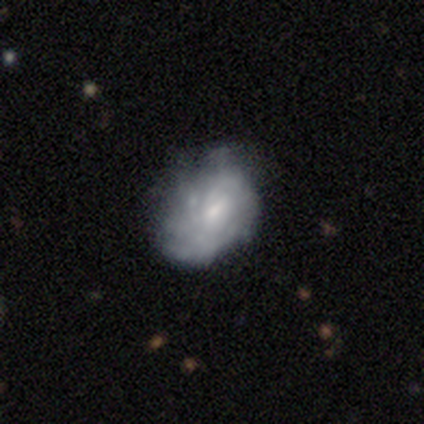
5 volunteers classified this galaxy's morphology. Smooth or featured?
  - featured or disk: 60% *
  - smooth: 40%
  - star or artifact: 0%
Edge-on disk?
  - no: 100% *
  - yes: 0%
Bar?
  - no: 67% *
  - weak: 33%
  - strong: 0%
Spiral arms?
  - yes: 100% *
  - no: 0%
Spiral winding?
  - medium: 67% *
  - loose: 33%
  - tight: 0%
Spiral arm count?
  - can't tell: 100% *
  - 1: 0%
  - 2: 0%
  - 3: 0%
  - 4: 0%
  - more than 4: 0%
Bulge size?
  - small: 67% *
  - none: 33%
  - dominant: 0%
  - large: 0%
  - moderate: 0%
Merging?
  - minor disturbance: 80% *
  - none: 20%
  - major disturbance: 0%
  - merger: 0%